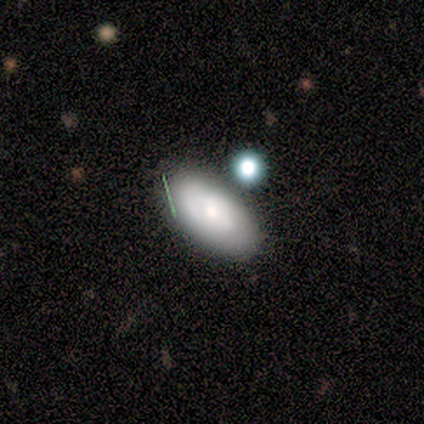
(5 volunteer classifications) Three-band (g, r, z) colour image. It shows a featured or disk galaxy (60%) with no bar (100%), no spiral arms (100%) and a large central bulge (50%, tied with small). Merging: minor disturbance (60%).